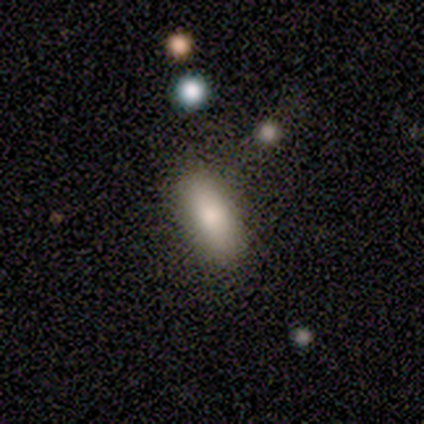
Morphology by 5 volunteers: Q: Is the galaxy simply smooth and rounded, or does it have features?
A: smooth — 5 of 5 (100%).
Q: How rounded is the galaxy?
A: cigar-shaped — 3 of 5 (60%).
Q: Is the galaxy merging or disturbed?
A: none — 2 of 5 (40%, tied with minor disturbance).